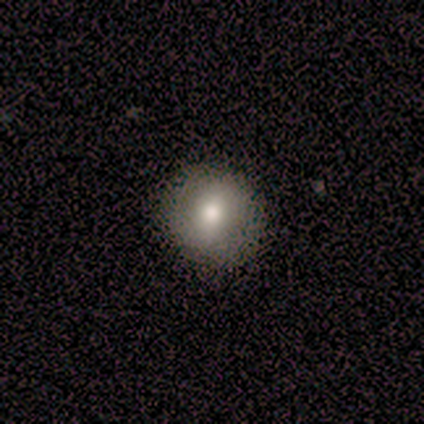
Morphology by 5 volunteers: smooth-or-featured: smooth: 80% | star or artifact: 20% | featured or disk: 0%
  how-rounded: round: 100% | in between: 0% | cigar-shaped: 0%
  merging: none: 100% | minor disturbance: 0% | major disturbance: 0% | merger: 0%